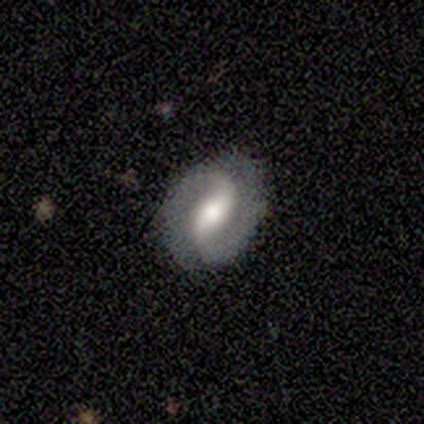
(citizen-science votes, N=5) Volunteers were most divided on "bar": weak: 67%, strong: 33%, no: 0%. More confident: edge-on disk — no (100%); spiral arms — yes (100%); spiral arm count — 2 (100%); bulge size — moderate (100%); merging — none (75%); spiral winding — loose (67%); smooth or featured — featured or disk (60%).